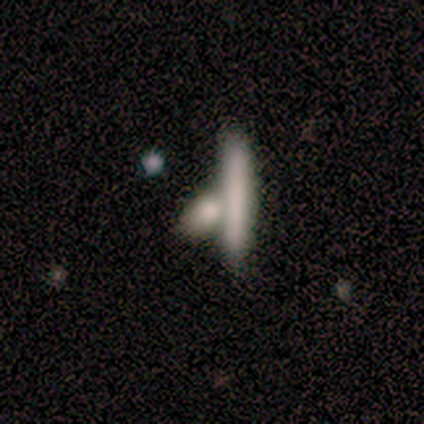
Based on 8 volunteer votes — A smooth galaxy with no disk features (50%) that is cigar-shaped (100%).

Vote fractions:
- Smooth or featured? smooth: 50% / featured or disk: 38% / star or artifact: 12%
- How rounded? cigar-shaped: 100% / round: 0% / in between: 0%
- Merging? merger: 57% / none: 14% / minor disturbance: 14% / major disturbance: 14%